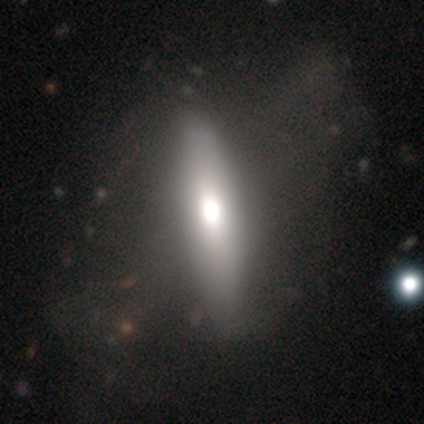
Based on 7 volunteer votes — smooth-or-featured: smooth: 71% | featured or disk: 29% | star or artifact: 0%
  how-rounded: in between: 60% | cigar-shaped: 40% | round: 0%
  merging: none: 57% | major disturbance: 29% | minor disturbance: 14% | merger: 0%